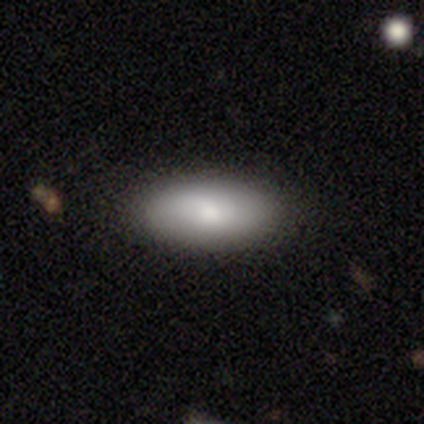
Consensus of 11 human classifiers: Morphology: type=smooth (100%); roundness=in between (82%); merging=none (91%).